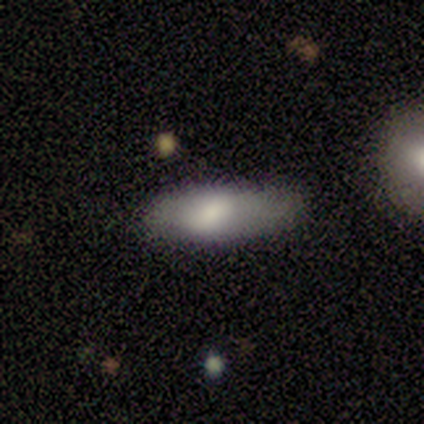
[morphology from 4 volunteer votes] Q: Smooth or featured?
A: smooth (100%)
Q: How rounded?
A: in between (75%); runner-up: cigar-shaped (25%)
Q: Merging?
A: none (50%); tied with: minor disturbance (50%)